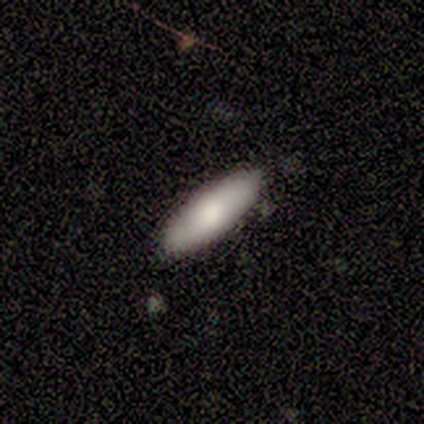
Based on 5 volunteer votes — smooth-or-featured: smooth: 80% | featured or disk: 20% | star or artifact: 0%
  how-rounded: in between: 75% | cigar-shaped: 25% | round: 0%
  merging: none: 100% | minor disturbance: 0% | major disturbance: 0% | merger: 0%